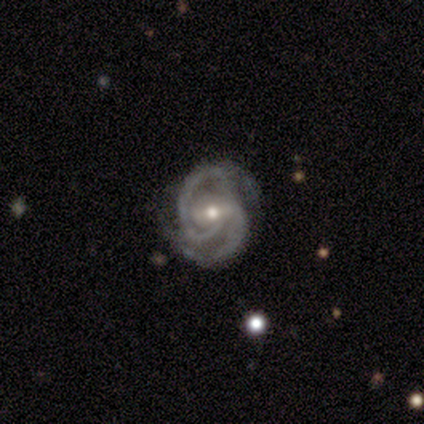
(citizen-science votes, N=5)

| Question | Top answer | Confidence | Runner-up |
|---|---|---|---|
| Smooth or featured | featured or disk | 100% | — |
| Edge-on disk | no | 100% | — |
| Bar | strong | 40% | tied: weak (40%) |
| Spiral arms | yes | 100% | — |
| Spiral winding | medium | 60% | tight (40%) |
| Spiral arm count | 2 | 40% | tied: can't tell (40%) |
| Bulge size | moderate | 60% | small (40%) |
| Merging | none | 80% | major disturbance (20%) |